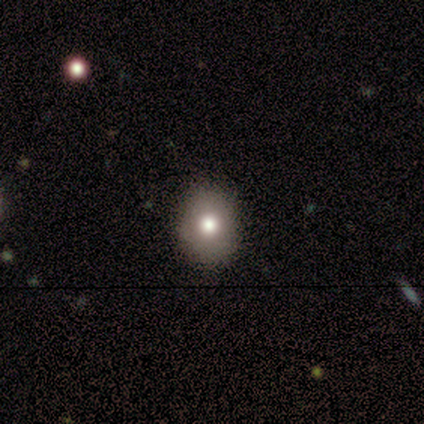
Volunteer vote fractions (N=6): Smooth or featured? smooth (83%)
How rounded? in between (80%)
Merging? none (80%)